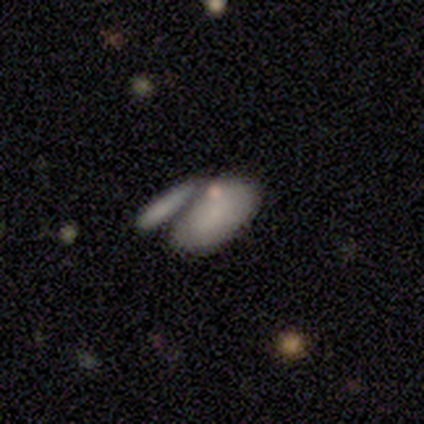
smooth_or_featured: smooth (p=1.00)
how_rounded: in between (p=1.00)
merging: major disturbance (p=1.00)